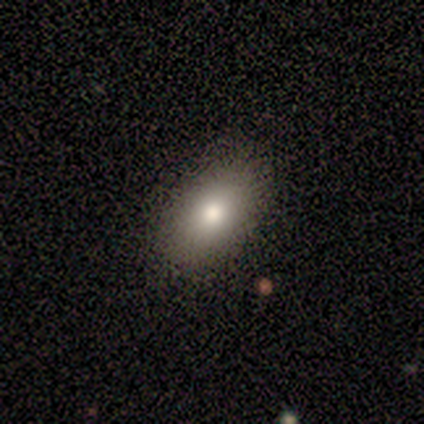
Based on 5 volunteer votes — Overall: smooth (100%). How rounded: in between (100%). Merging: none (100%).